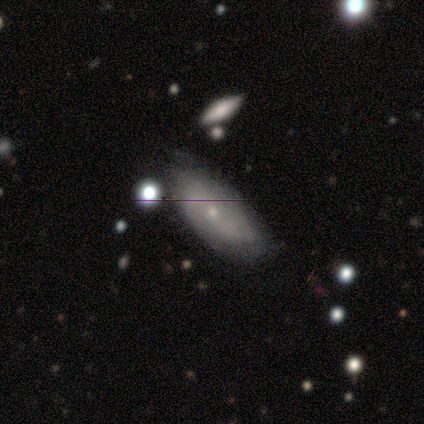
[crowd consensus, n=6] Q: Smooth or featured?
A: featured or disk (83%); runner-up: star or artifact (17%)
Q: Edge-on disk?
A: no (80%); runner-up: yes (20%)
Q: Bar?
A: no (75%); runner-up: strong (25%)
Q: Spiral arms?
A: no (75%); runner-up: yes (25%)
Q: Bulge size?
A: small (100%)
Q: Merging?
A: minor disturbance (60%); runner-up: none (40%)